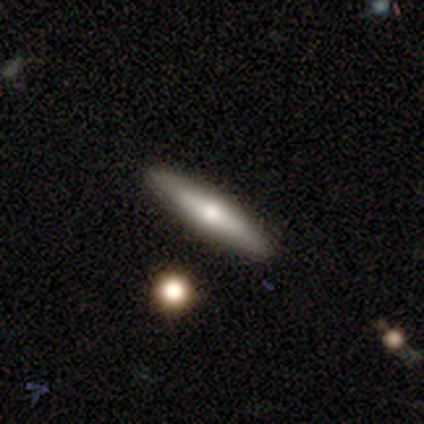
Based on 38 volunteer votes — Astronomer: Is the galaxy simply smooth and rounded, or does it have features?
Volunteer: featured or disk — 53% (runner-up: smooth, 45%).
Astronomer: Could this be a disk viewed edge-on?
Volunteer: yes — 85%.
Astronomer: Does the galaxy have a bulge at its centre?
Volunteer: rounded — 100%.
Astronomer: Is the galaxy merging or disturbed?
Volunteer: none — 86%.